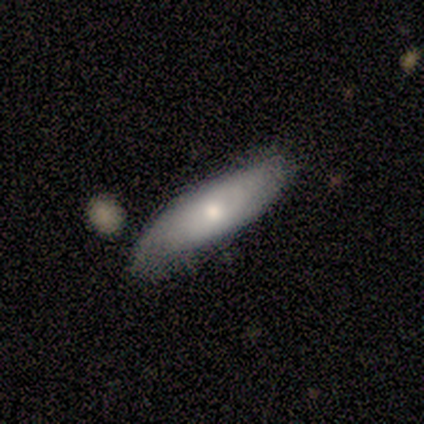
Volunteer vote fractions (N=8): Smooth or featured?
  - featured or disk: 62% *
  - smooth: 25%
  - star or artifact: 12%
Edge-on disk?
  - no: 60% *
  - yes: 40%
Bar?
  - no: 100% *
  - strong: 0%
  - weak: 0%
Spiral arms?
  - yes: 67% *
  - no: 33%
Spiral winding?
  - tight: 50% * (tied)
  - medium: 50% * (tied)
  - loose: 0%
Spiral arm count?
  - can't tell: 100% *
  - 1: 0%
  - 2: 0%
  - 3: 0%
  - 4: 0%
  - more than 4: 0%
Bulge size?
  - small: 67% *
  - large: 33%
  - dominant: 0%
  - moderate: 0%
  - none: 0%
Merging?
  - none: 57% *
  - minor disturbance: 29%
  - major disturbance: 14%
  - merger: 0%